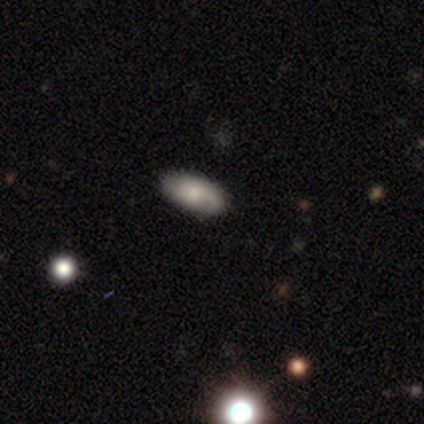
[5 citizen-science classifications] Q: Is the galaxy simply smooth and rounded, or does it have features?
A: smooth — 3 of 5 (60%).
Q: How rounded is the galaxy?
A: in between — 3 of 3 (100%).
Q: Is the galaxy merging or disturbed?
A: none — 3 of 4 (75%).